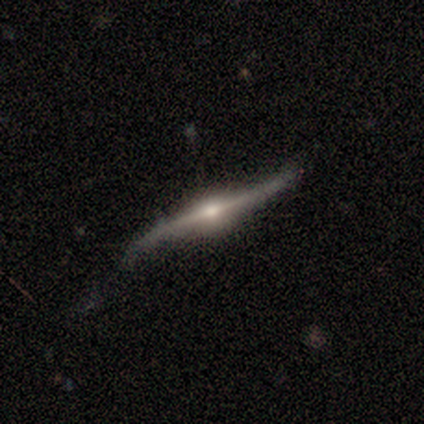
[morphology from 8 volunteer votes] This appears to be a featured or disk galaxy (88%) viewed edge-on (71%) with a rounded central bulge (60%). Merging: none (71%).